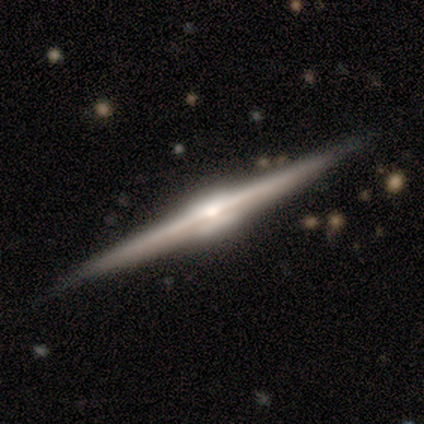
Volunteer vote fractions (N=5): This appears to be a featured or disk galaxy (100%) viewed edge-on (100%) with a rounded central bulge (60%). Merging: none (100%).